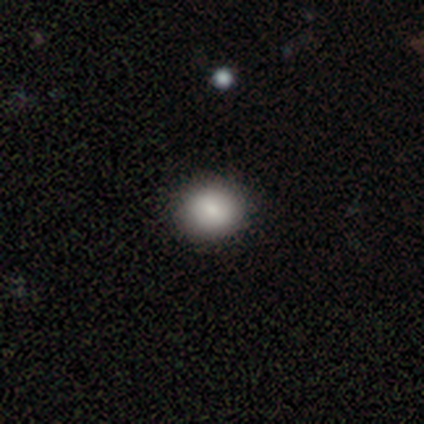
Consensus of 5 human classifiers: A smooth galaxy with no disk features (100%) that is round (80%). Merging: none (100%).